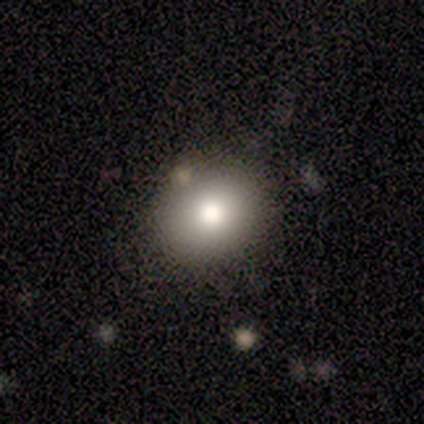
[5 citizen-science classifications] A smooth galaxy with no disk features (80%) that is round (50%, tied with in between).

Vote fractions:
- Smooth or featured? smooth: 80% / featured or disk: 20% / star or artifact: 0%
- How rounded? round: 50% (tied) / in between: 50% (tied) / cigar-shaped: 0%
- Merging? none: 80% / minor disturbance: 20% / major disturbance: 0% / merger: 0%